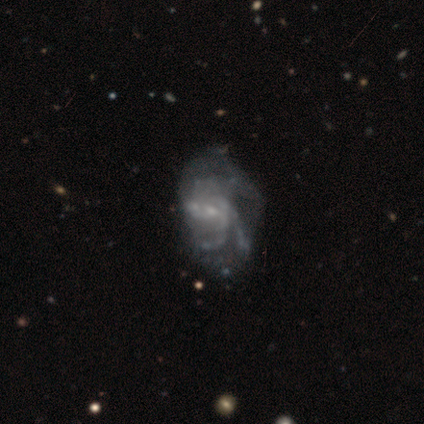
smooth-or-featured: featured or disk: 85% | star or artifact: 12% | smooth: 2%
  disk-edge-on: no: 100% | yes: 0%
    bar: no: 56% | weak: 44% | strong: 0%
    has-spiral-arms: yes: 91% | no: 9%
      spiral-winding: medium: 68% | loose: 19% | tight: 13%
      spiral-arm-count: 3: 32% | can't tell: 29% | 2: 19% | 4: 19% | 1: 0% | more than 4: 0%
    bulge-size: small: 74% | none: 21% | moderate: 6% | dominant: 0% | large: 0%
  merging: major disturbance: 31% | none: 14% | minor disturbance: 14% | merger: 9%